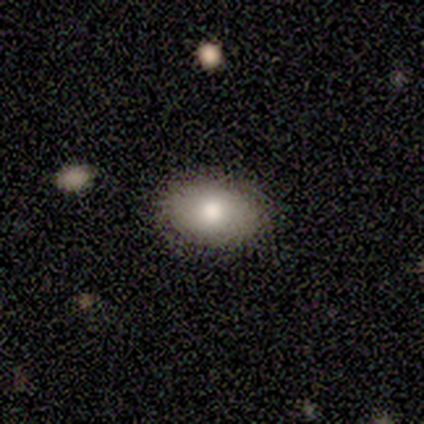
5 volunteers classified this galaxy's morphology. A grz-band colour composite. It shows a smooth galaxy with no disk features (80%) that is in between round and cigar-shaped (100%). Merging: none (100%).